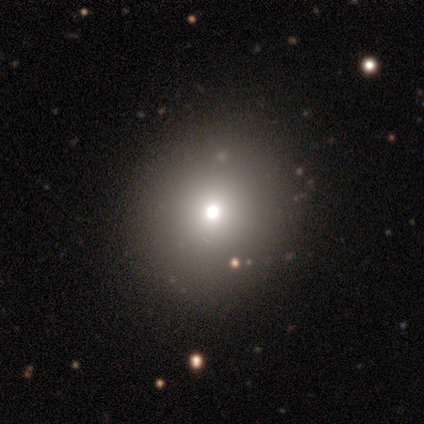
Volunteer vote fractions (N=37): A smooth galaxy with no disk features (51%) that is round (79%). Merging: none (83%).